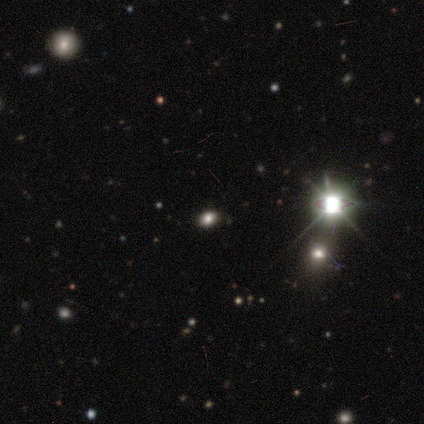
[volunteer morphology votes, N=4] A star or artifact, not a galaxy (75%).